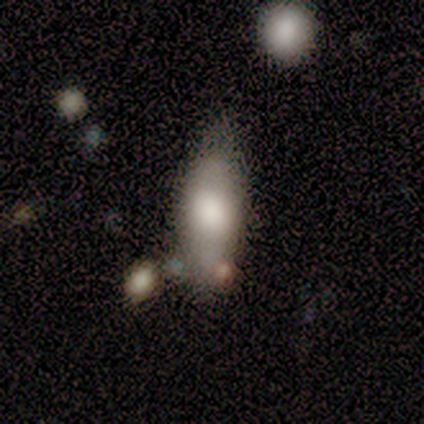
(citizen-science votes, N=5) smooth 60%, star or artifact 40%, featured or disk 0%. Down the decision tree: how rounded — in between (100%); merging — minor disturbance (67%).